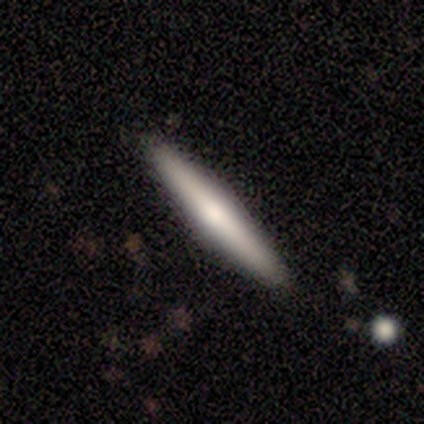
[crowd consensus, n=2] Overall: featured or disk (100%). Edge-on disk: yes (100%). Edge-on bulge: boxy (50%, tied with rounded). Merging: none (100%).